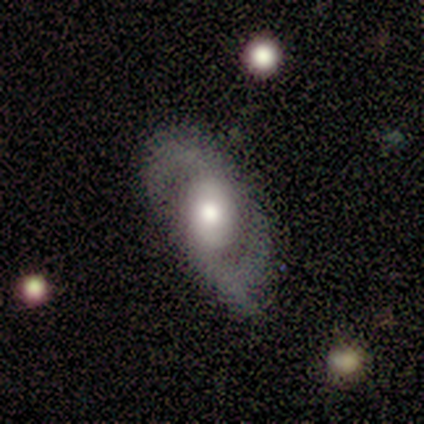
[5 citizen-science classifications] Smooth or featured?
  - featured or disk: 100% *
  - smooth: 0%
  - star or artifact: 0%
Edge-on disk?
  - no: 100% *
  - yes: 0%
Bar?
  - weak: 60% *
  - strong: 20%
  - no: 20%
Spiral arms?
  - yes: 100% *
  - no: 0%
Spiral winding?
  - loose: 60% *
  - tight: 20%
  - medium: 20%
Spiral arm count?
  - 2: 100% *
  - 1: 0%
  - 3: 0%
  - 4: 0%
  - more than 4: 0%
  - can't tell: 0%
Bulge size?
  - large: 60% *
  - moderate: 40%
  - dominant: 0%
  - small: 0%
  - none: 0%
Merging?
  - none: 100% *
  - minor disturbance: 0%
  - major disturbance: 0%
  - merger: 0%